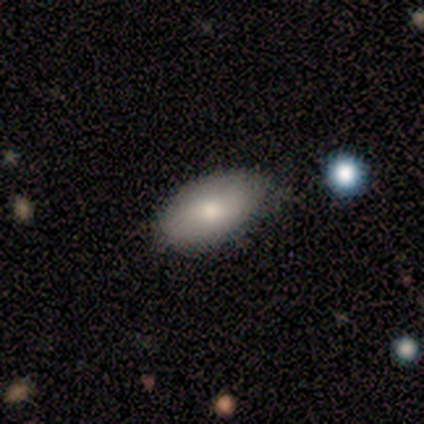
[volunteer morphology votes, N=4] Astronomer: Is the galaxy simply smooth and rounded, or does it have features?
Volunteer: smooth — 75%.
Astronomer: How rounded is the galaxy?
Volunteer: in between — 100%.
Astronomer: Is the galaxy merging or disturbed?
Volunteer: none — 50%, tied with minor disturbance at 50%.